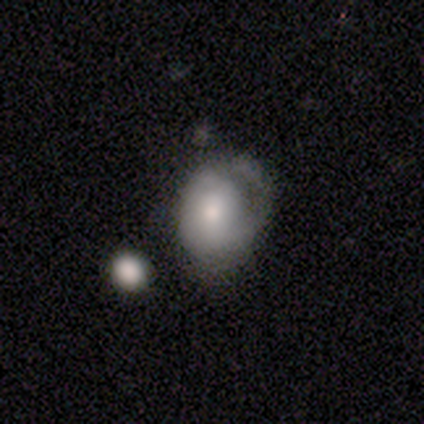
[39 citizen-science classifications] Volunteers were most divided on "merging": minor disturbance: 22%, none: 19%, major disturbance: 19%, merger: 8%. More confident: how rounded — round (57%); smooth or featured — smooth (54%).